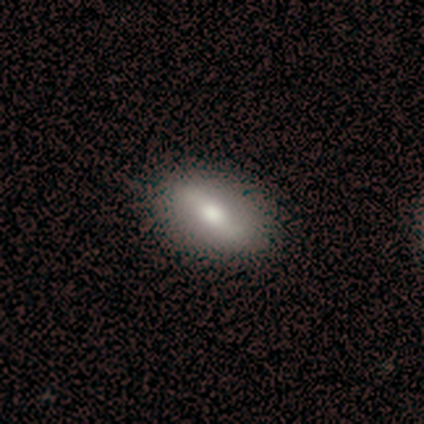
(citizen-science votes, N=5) featured or disk 80%, smooth 20%, star or artifact 0%. Down the decision tree: edge-on disk — no (100%); bar — strong (75%); spiral arms — yes (50%, tied with no); spiral arm count — 2 (100%); spiral winding — medium (50%, tied with loose); bulge size — moderate (75%); merging — none (40%, tied with minor disturbance).